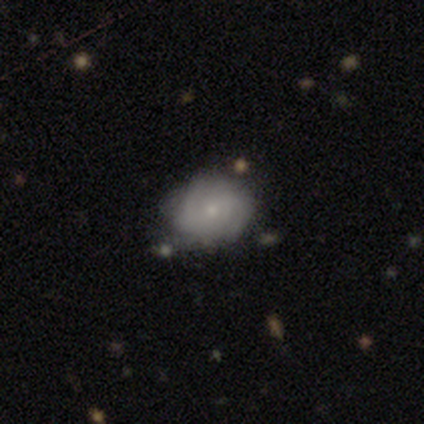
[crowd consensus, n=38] A featured or disk galaxy (50%) with no bar (53%), tight (47%) spiral arms (79%) and a small central bulge (84%). Merging: none (43%).